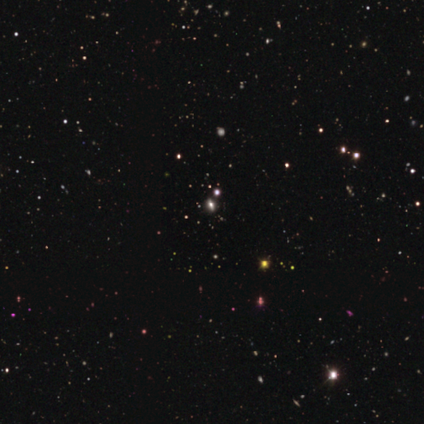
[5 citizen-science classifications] Q: Smooth or featured?
A: smooth (40%); tied with: star or artifact (40%)
Q: How rounded?
A: in between (100%)
Q: Merging?
A: none (100%)